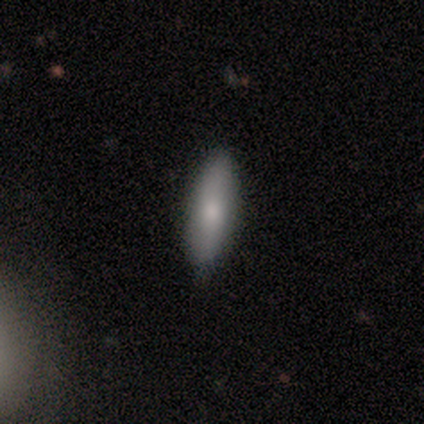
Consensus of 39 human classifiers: smooth 72%, featured or disk 18%, star or artifact 10%. Down the decision tree: how rounded — cigar-shaped (54%); merging — none (86%).